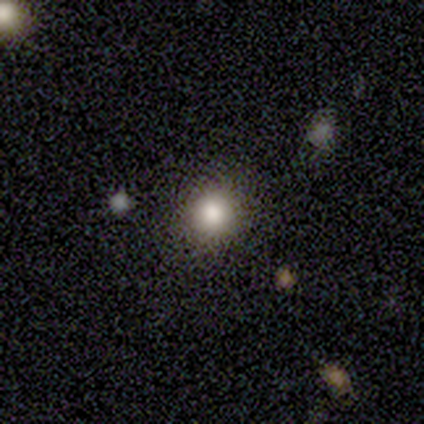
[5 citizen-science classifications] smooth_or_featured: smooth (p=0.80) [alt: star or artifact p=0.20]
how_rounded: round (p=1.00)
merging: none (p=0.50) [alt: minor disturbance p=0.25]